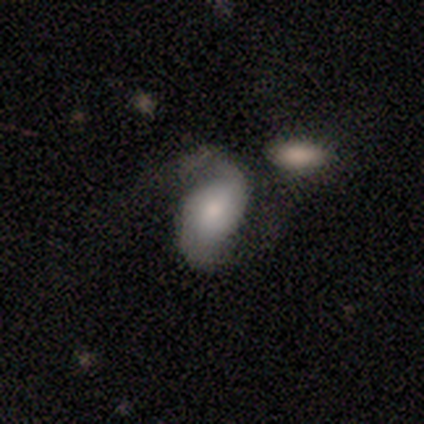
A featured or disk galaxy (100%) with no bar (80%), 2 (100%) tight (40%, tied with loose) spiral arms (100%) and a dominant central bulge (40%, tied with small). Merging: none (40%).